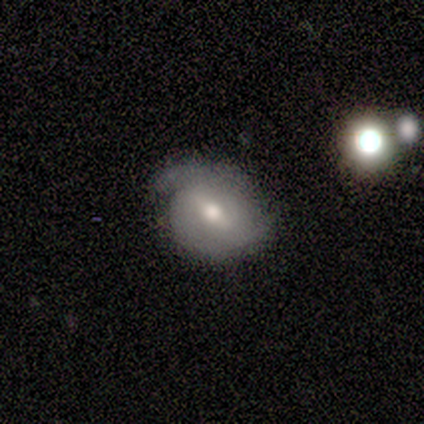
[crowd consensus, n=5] Smooth or featured? featured or disk (80%)
Edge-on disk? no (100%)
Bar? weak (75%)
Spiral arms? yes (50%, tied with no)
Spiral winding? tight (50%, tied with medium)
Spiral arm count? 2 (100%)
Bulge size? moderate (50%, tied with small)
Merging? none (80%)